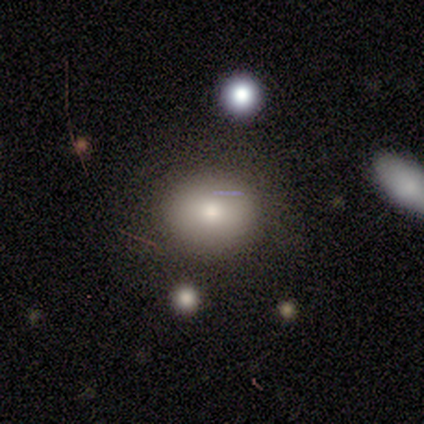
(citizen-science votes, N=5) This appears to be a smooth galaxy with no disk features (80%) that is round (50%, tied with in between). Merging: none (100%).